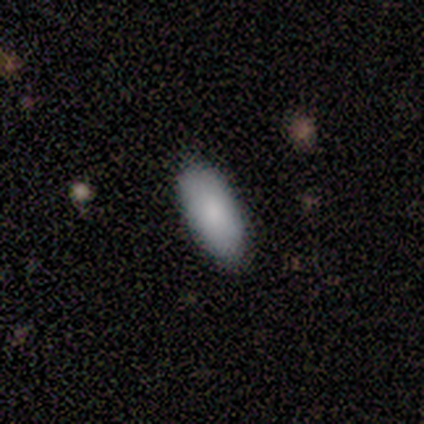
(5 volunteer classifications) This is clearly a smooth galaxy (100%). How rounded: clearly in between (100%). Merging: clearly none (100%).